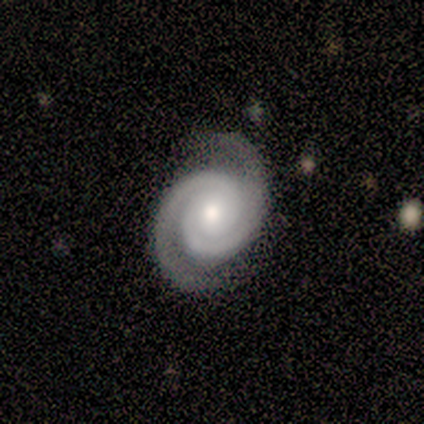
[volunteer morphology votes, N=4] This is likely a featured or disk galaxy (75%). It is clearly not viewed edge-on (100%). Bar: marginally strong (33%, tied with weak and no). Spiral arm pattern: clearly yes (100%). Spiral arm count: clearly 2 (100%). Spiral winding: likely medium (67%). Central bulge: likely small (67%). Merging: likely none (75%).